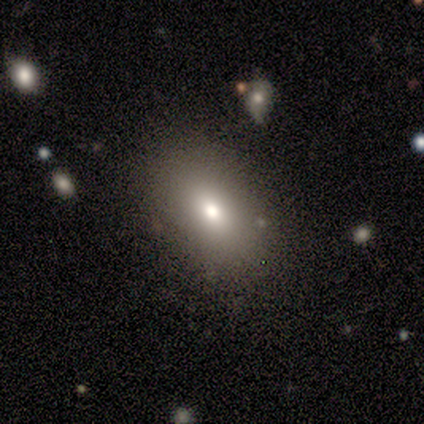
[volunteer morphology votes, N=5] Smooth or featured? 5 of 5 (100%) said smooth. How rounded? 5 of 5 (100%) said in between. Merging? 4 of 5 (80%) said none.